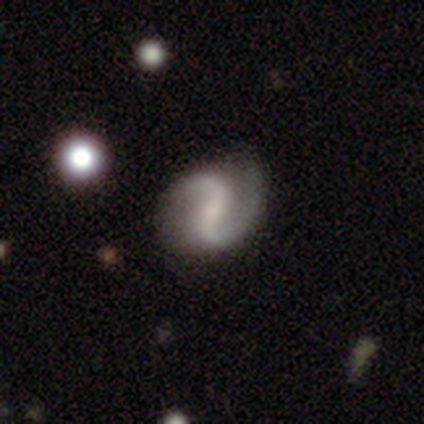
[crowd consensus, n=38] A featured or disk galaxy (89%) with a strong bar (47%), 2 (100%) loose (45%) spiral arms (91%) and a small central bulge (53%). Merging: none (78%).